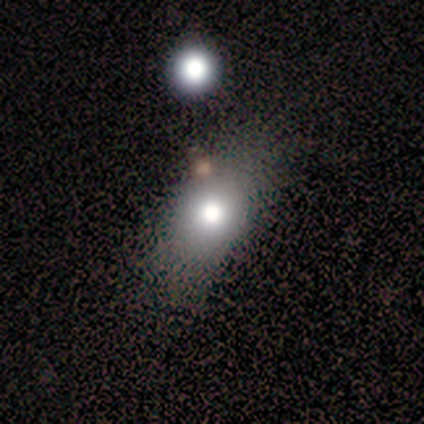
Smooth or featured?
  - smooth: 71% *
  - featured or disk: 14%
  - star or artifact: 14%
How rounded?
  - in between: 80% *
  - round: 20%
  - cigar-shaped: 0%
Merging?
  - none: 67% *
  - minor disturbance: 17%
  - major disturbance: 17%
  - merger: 0%